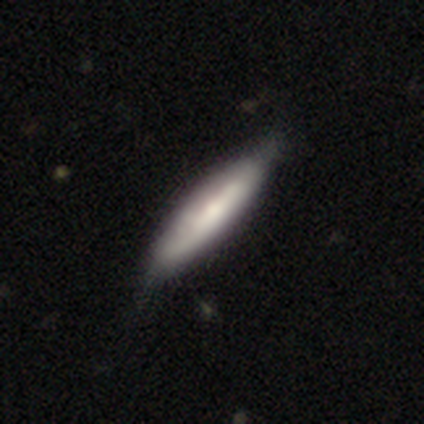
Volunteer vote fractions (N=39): Overall: smooth (59%; featured or disk 41%). How rounded: cigar-shaped (87%). Merging: none (62%).